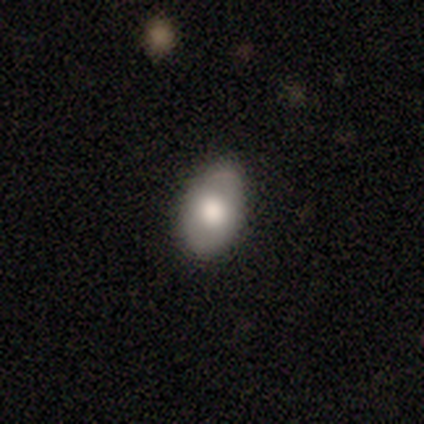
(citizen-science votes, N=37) Smooth or featured? smooth (73%)
How rounded? in between (96%)
Merging? none (72%)